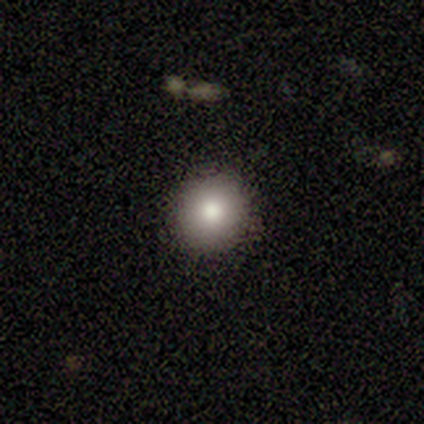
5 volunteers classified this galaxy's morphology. Smooth or featured: smooth — 100%
How rounded: round — 100%
Merging: none — 100%